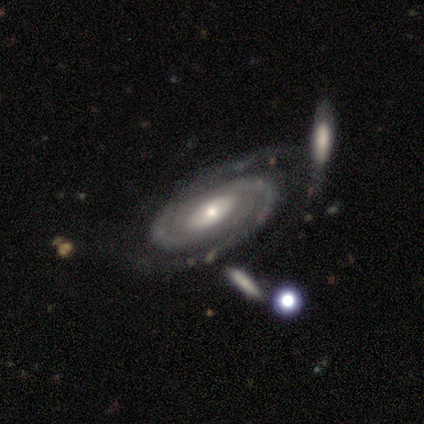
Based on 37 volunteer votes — Smooth or featured? 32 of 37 (86%) said featured or disk. Edge-on disk? 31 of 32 (97%) said no. Bar? 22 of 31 (71%) said no. Spiral arms? 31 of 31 (100%) said yes. Spiral winding? 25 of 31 (81%) said tight. Spiral arm count? 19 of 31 (61%) said 2. Bulge size? 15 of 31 (48%) said small. Merging? 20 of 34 (59%) said none.